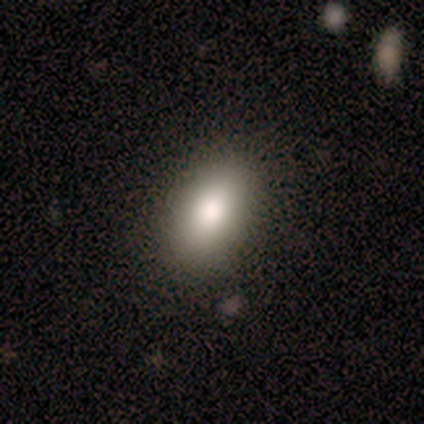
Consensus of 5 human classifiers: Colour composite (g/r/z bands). It shows a smooth galaxy with no disk features (60%) that is in between round and cigar-shaped (100%). Merging: none (75%).